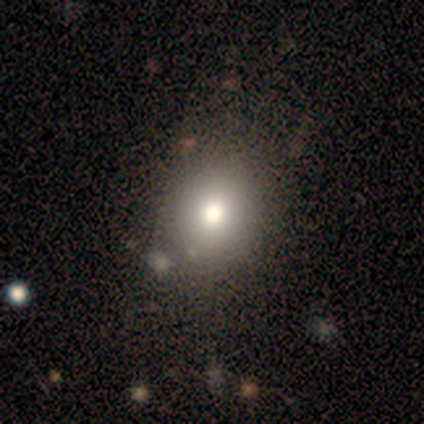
Smooth or featured: smooth — 79% (featured or disk — 14%)
How rounded: round — 70% (in between — 30%)
Merging: none — 77% (minor disturbance — 18%)